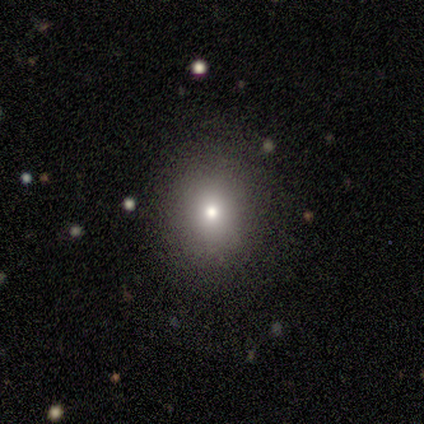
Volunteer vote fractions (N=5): Smooth or featured? featured or disk (60%)
Edge-on disk? no (100%)
Bar? no (100%)
Spiral arms? no (100%)
Bulge size? moderate (67%)
Merging? none (100%)